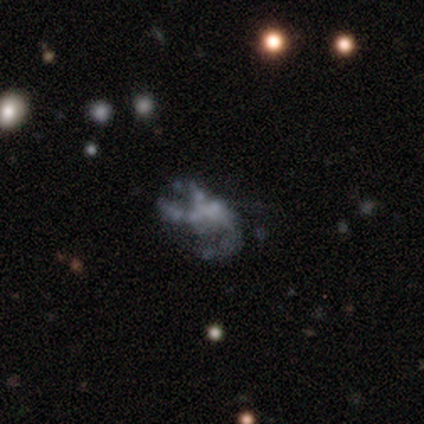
Overall: featured or disk (60%; smooth 20%). Edge-on disk: no (100%). Bar: no (100%). Spiral arms: no (100%). Bulge size: none (100%). Merging: none (100%).